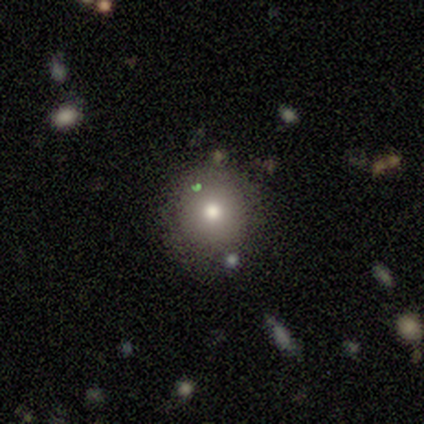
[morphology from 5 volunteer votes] This is likely a smooth galaxy (60%). How rounded: likely round (67%). Merging: likely none (60%).